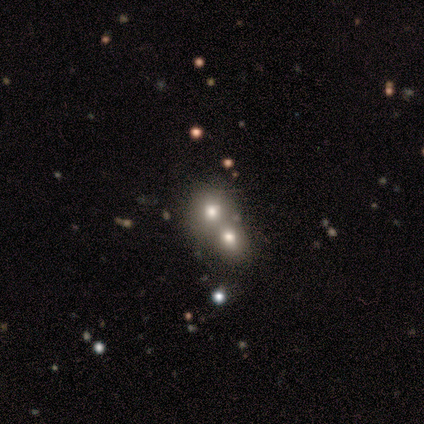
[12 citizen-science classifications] This appears to be a smooth galaxy with no disk features (50%) that is round (83%). Merging: none (50%, tied with merger).